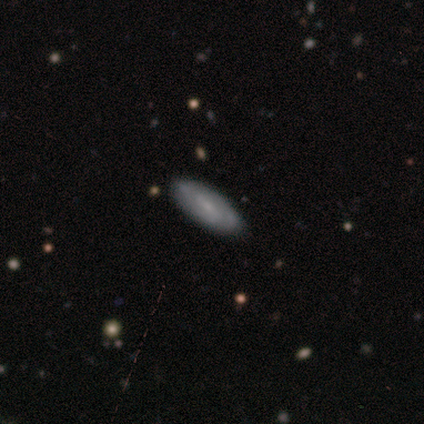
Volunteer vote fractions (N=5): featured or disk 60%, smooth 20%, star or artifact 20%. Down the decision tree: edge-on disk — no (100%); bar — no (67%); spiral arms — yes (100%); spiral arm count — 2 (67%); spiral winding — medium (67%); bulge size — none (67%); merging — none (100%).